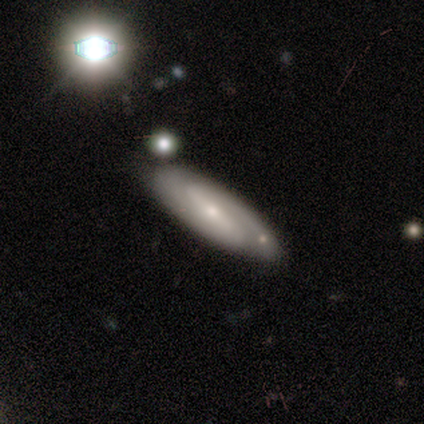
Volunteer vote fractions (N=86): Overall: featured or disk (69%). Edge-on disk: no (88%). Bar: strong (62%; weak 25%). Spiral arms: yes (96%). Spiral arm count: 2 (84%). Spiral winding: medium (56%; tight 38%). Bulge size: small (67%). Merging: none (80%).